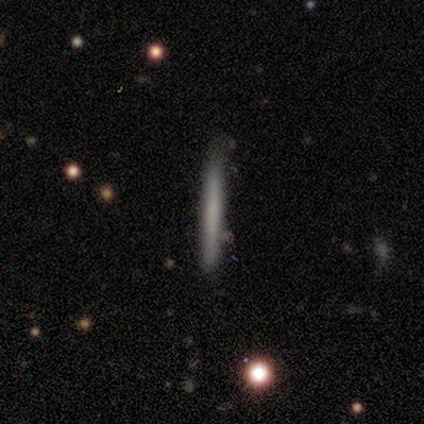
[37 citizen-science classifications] Smooth or featured?
  - smooth: 57% *
  - featured or disk: 32%
  - star or artifact: 11%
How rounded?
  - cigar-shaped: 95% *
  - in between: 5%
  - round: 0%
Merging?
  - none: 88% *
  - minor disturbance: 9%
  - merger: 3%
  - major disturbance: 0%